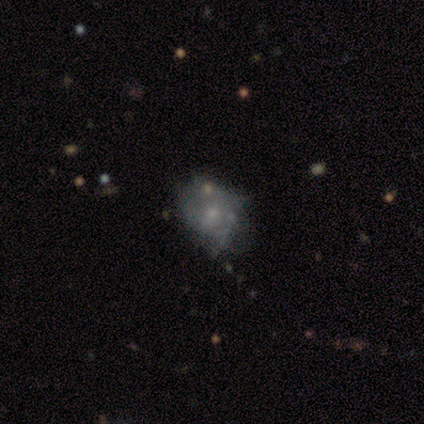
featured or disk 62%, smooth 38%, star or artifact 0%. Down the decision tree: edge-on disk — no (100%); bar — no (88%); spiral arms — no (100%); bulge size — small (62%); merging — none (38%, tied with minor disturbance).